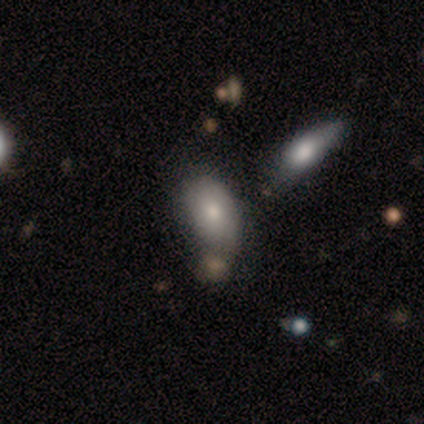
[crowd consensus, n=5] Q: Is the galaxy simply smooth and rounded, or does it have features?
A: smooth — 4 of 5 (80%).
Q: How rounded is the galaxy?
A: in between — 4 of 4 (100%).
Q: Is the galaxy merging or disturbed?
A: minor disturbance — 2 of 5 (40%).